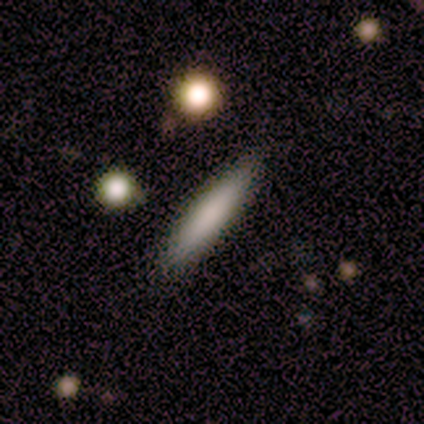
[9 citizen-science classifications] Volunteers were most divided on "smooth or featured": smooth: 78%, featured or disk: 11%, star or artifact: 11%. More confident: merging — none (88%); how rounded — cigar-shaped (86%).